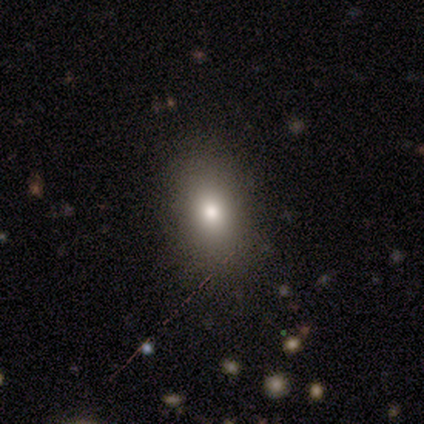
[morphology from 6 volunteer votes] type=smooth (83%); roundness=in between (100%); merging=none (60%).